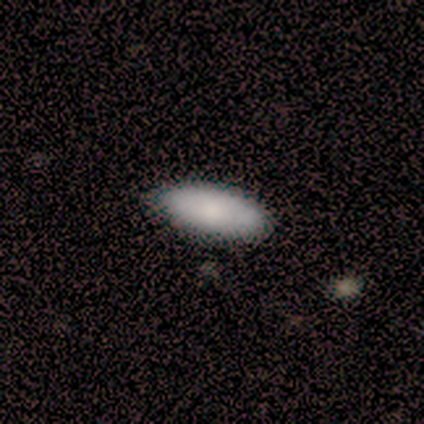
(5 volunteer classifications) This appears to be a smooth galaxy with no disk features (100%) that is in between round and cigar-shaped (80%). Merging: none (60%).